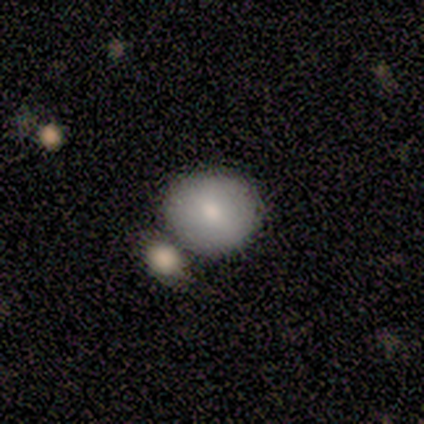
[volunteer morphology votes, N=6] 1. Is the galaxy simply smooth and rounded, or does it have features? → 50% smooth, 33% star or artifact, 17% featured or disk.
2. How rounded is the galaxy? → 100% round, 0% in between, 0% cigar-shaped.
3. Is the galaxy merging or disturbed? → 75% none, 25% merger, 0% minor disturbance, 0% major disturbance.